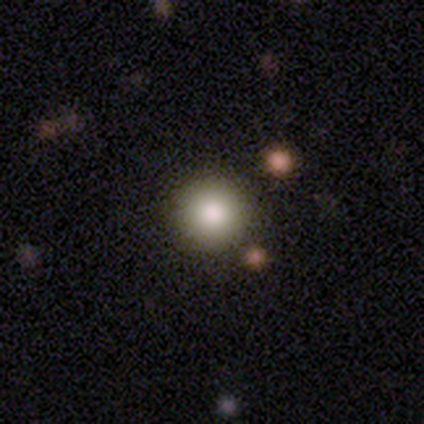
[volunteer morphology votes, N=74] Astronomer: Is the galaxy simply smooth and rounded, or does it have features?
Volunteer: smooth — 92%.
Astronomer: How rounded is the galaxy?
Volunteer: round — 97%.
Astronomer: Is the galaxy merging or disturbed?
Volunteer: none — 93%.